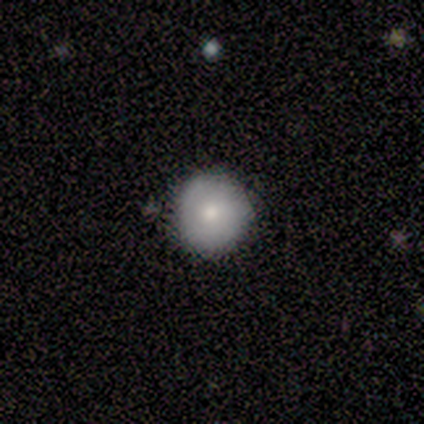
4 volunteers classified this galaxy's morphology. This appears to be a featured or disk galaxy (50%) with no bar (100%), 1 (100%) tight (100%) spiral arms (50%, tied with no) and a moderate central bulge (100%). Merging: none (100%).